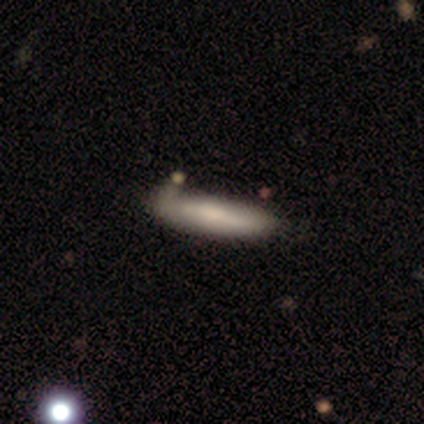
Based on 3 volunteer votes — Overall: smooth (100%). How rounded: cigar-shaped (100%). Merging: none (67%; minor disturbance 33%).